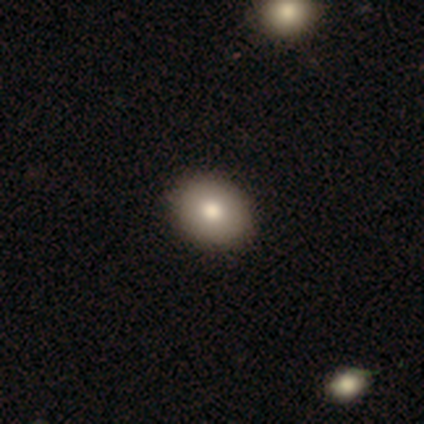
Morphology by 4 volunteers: A featured or disk galaxy (50%) with no bar (100%), no spiral arms (100%) and a moderate central bulge (100%). Merging: none (100%).